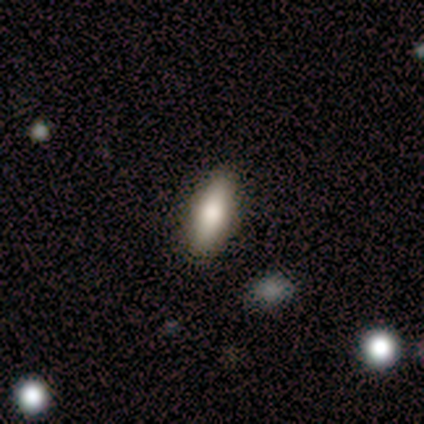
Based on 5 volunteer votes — Q: Smooth or featured?
A: smooth (80%); runner-up: featured or disk (20%)
Q: How rounded?
A: in between (50%); tied with: cigar-shaped (50%)
Q: Merging?
A: none (80%); runner-up: minor disturbance (20%)